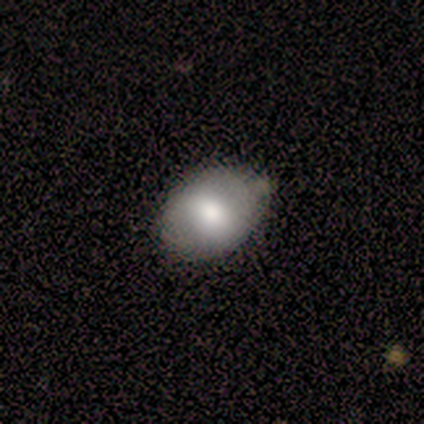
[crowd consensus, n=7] smooth_or_featured: smooth (p=0.86) [alt: featured or disk p=0.14]
how_rounded: in between (p=1.00)
merging: none (p=0.57) [alt: minor disturbance p=0.29]